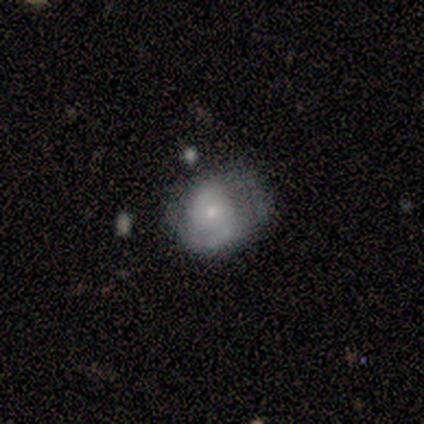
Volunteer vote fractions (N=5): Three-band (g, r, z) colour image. It shows a featured or disk galaxy (60%) with no bar (67%), 2 (67%) loose (67%) spiral arms (100%) and a moderate central bulge (67%). Merging: none (80%).